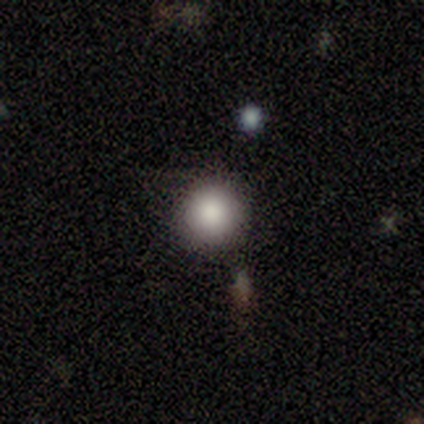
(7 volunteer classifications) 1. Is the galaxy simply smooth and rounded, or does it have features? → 71% smooth, 29% star or artifact, 0% featured or disk.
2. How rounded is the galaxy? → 100% round, 0% in between, 0% cigar-shaped.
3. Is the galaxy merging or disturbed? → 80% none, 20% minor disturbance, 0% major disturbance, 0% merger.